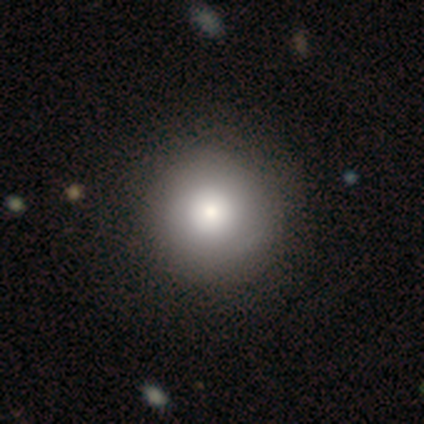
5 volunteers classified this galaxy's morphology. This appears to be a smooth galaxy with no disk features (60%) that is round (100%). Merging: none (50%).